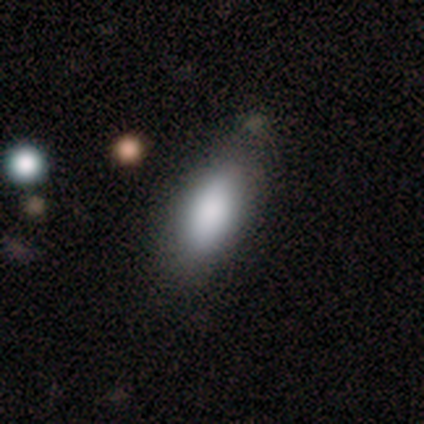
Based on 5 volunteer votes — Volunteers were most divided on "how rounded": in between: 80%, cigar-shaped: 20%, round: 0%. More confident: smooth or featured — smooth (100%); merging — none (80%).